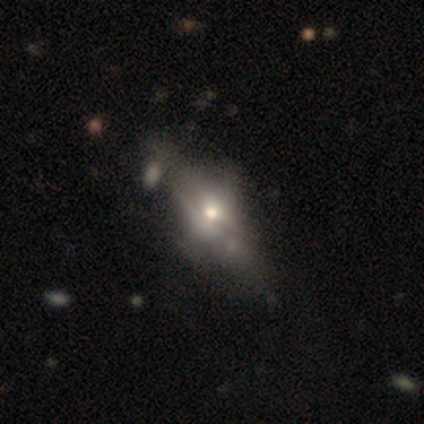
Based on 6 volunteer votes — Q: Smooth or featured?
A: featured or disk (83%); runner-up: smooth (17%)
Q: Edge-on disk?
A: yes (60%); runner-up: no (40%)
Q: Edge-on bulge?
A: rounded (100%)
Q: Merging?
A: none (67%); runner-up: major disturbance (17%)